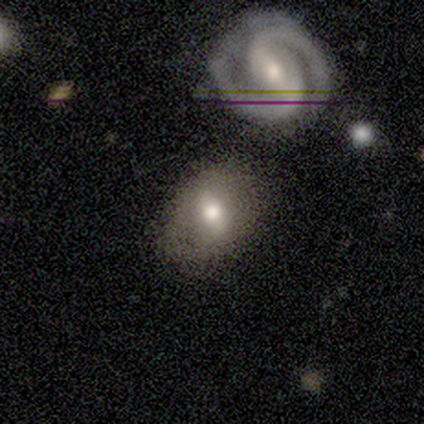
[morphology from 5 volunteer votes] smooth_or_featured: smooth (p=0.60) [alt: featured or disk p=0.40]
how_rounded: in between (p=1.00)
merging: none (p=0.80) [alt: minor disturbance p=0.20]